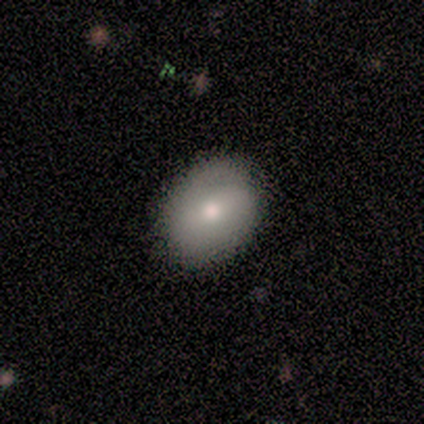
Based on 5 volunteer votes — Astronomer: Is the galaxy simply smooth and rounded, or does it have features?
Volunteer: smooth — 100%.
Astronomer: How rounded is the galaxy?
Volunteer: in between — 60% (runner-up: round, 40%).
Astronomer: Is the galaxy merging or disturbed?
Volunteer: none — 100%.